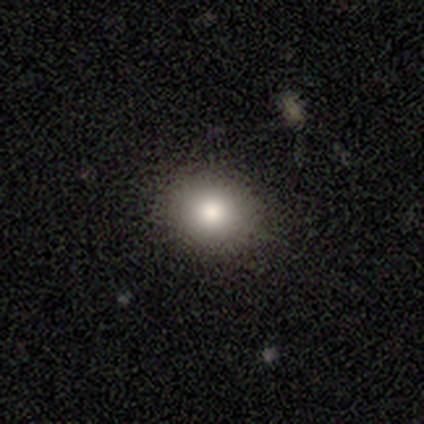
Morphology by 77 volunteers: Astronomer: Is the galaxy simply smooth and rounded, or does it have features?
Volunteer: smooth — 82%.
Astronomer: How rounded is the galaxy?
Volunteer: round — 68%.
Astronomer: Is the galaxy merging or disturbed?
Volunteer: none — 56%.